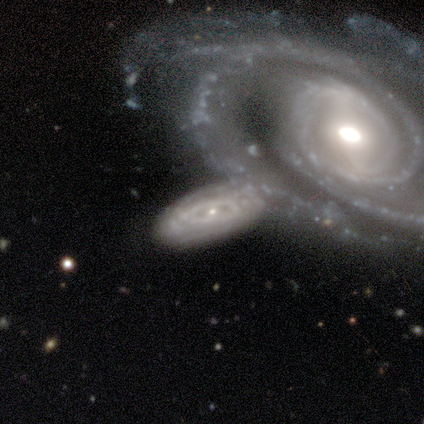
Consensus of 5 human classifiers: A featured or disk galaxy (80%) with a weak bar (50%), tight (75%) spiral arms (100%) and a moderate central bulge (50%). Merging: merger (60%).